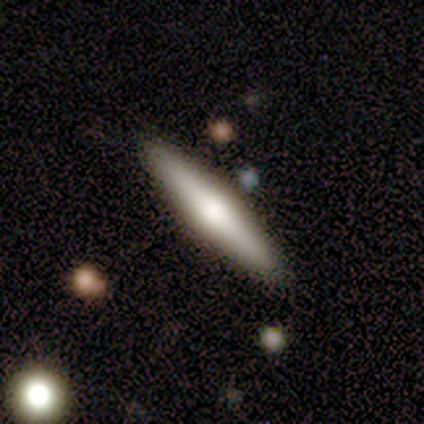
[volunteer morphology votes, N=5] Volunteers were most divided on "smooth or featured": smooth: 60%, featured or disk: 40%, star or artifact: 0%. More confident: how rounded — cigar-shaped (100%); merging — none (80%).